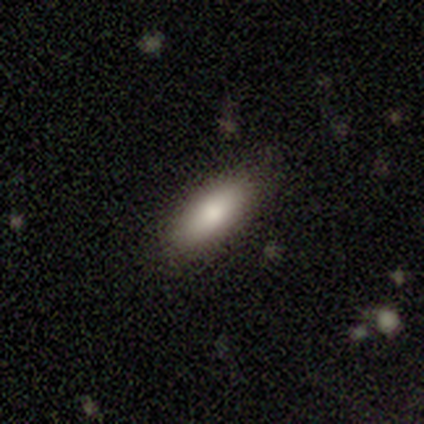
smooth-or-featured: smooth: 94% | featured or disk: 4% | star or artifact: 3%
  how-rounded: in between: 80% | cigar-shaped: 19% | round: 1%
  merging: none: 47% | minor disturbance: 8% | merger: 1% | major disturbance: 0%